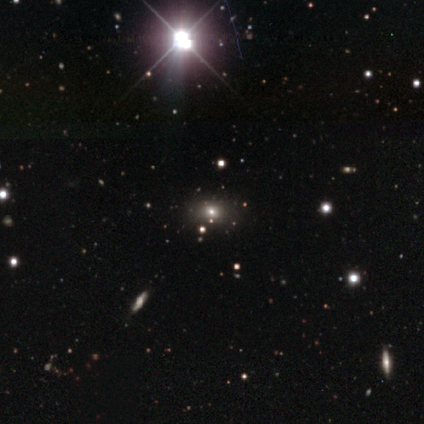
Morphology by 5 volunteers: type=star or artifact (80%).